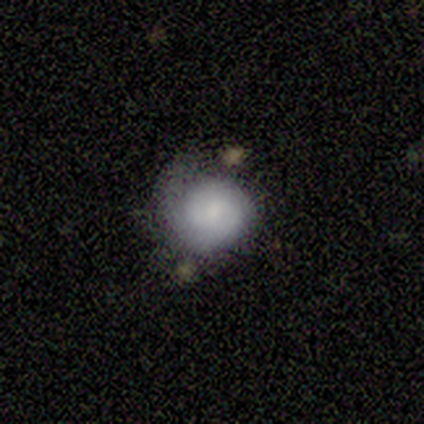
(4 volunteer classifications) A smooth galaxy with no disk features (50%, tied with featured or disk) that is round (50%, tied with in between).

Vote fractions:
- Smooth or featured? smooth: 50% (tied) / featured or disk: 50% (tied) / star or artifact: 0%
- How rounded? round: 50% (tied) / in between: 50% (tied) / cigar-shaped: 0%
- Merging? none: 75% / minor disturbance: 25% / major disturbance: 0% / merger: 0%